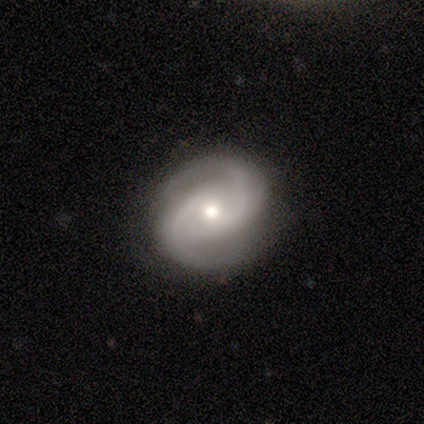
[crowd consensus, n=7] A featured or disk galaxy (86%) with no bar (83%), 2 (100%) medium (83%) spiral arms (100%) and a small central bulge (50%). Merging: none (100%).